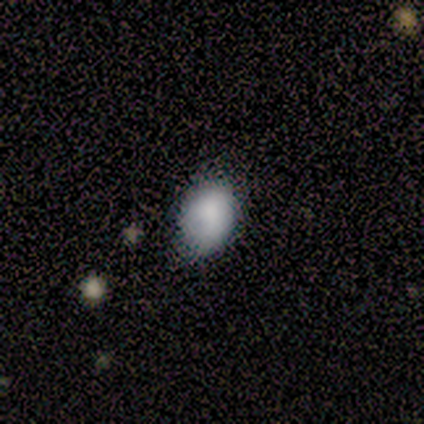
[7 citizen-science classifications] Smooth or featured: smooth — 71% (featured or disk — 29%)
How rounded: in between — 80% (round — 20%)
Merging: none — 86% (major disturbance — 14%)